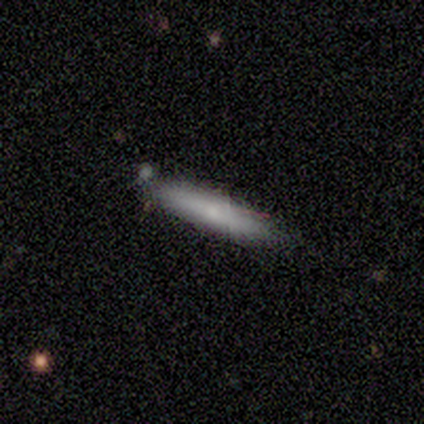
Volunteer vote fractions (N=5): Smooth or featured? 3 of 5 (60%) said smooth. How rounded? 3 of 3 (100%) said cigar-shaped. Merging? 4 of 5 (80%) said none.